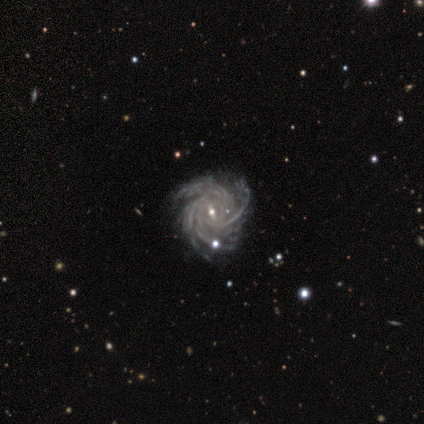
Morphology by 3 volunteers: type=featured or disk (100%); edge-on=no (100%); bar=no (67%); spiral arms=yes (100%); winding=medium (67%); arm count=can't tell (67%); bulge=small (67%); merging=none (67%).